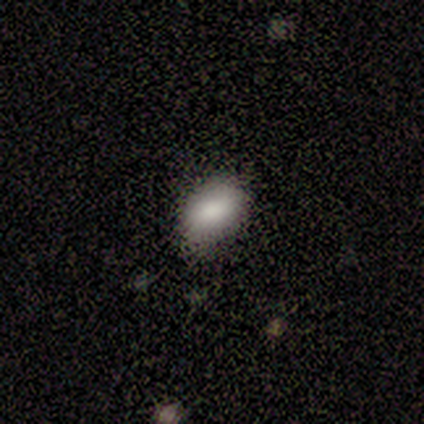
Smooth or featured? 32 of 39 (82%) said smooth. How rounded? 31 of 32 (97%) said in between. Merging? 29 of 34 (85%) said none.